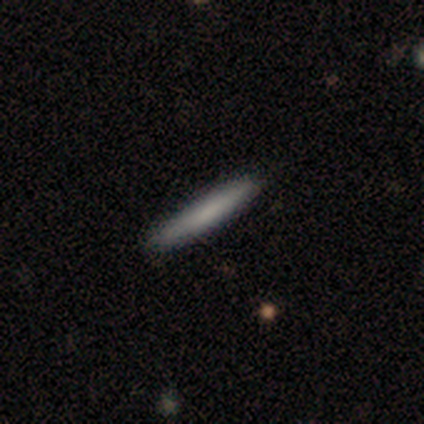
Volunteers were most divided on "smooth or featured": smooth: 80%, featured or disk: 20%, star or artifact: 0%. More confident: how rounded — cigar-shaped (100%); merging — none (100%).